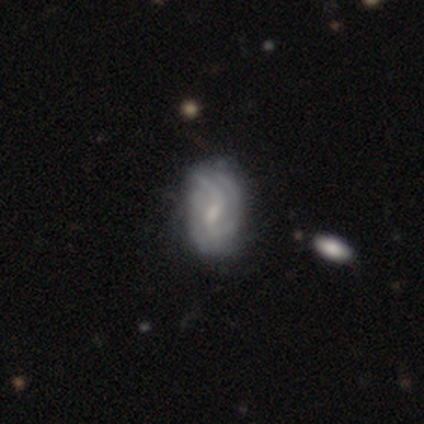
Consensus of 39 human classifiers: Morphology: type=featured or disk (79%); edge-on=no (100%); bar=weak (68%); spiral arms=yes (87%); winding=loose (56%); arm count=2 (44%); bulge=moderate (45%); merging=none (36%).